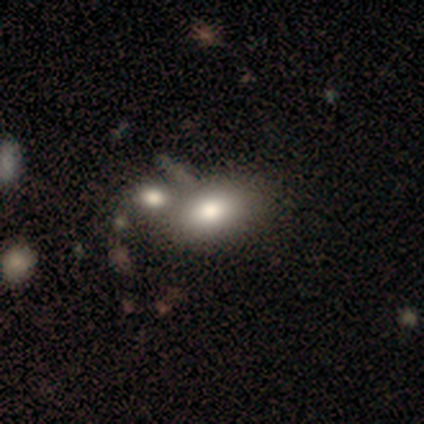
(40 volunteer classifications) smooth_or_featured: smooth (p=0.88) [alt: featured or disk p=0.10]
how_rounded: in between (p=0.94) [alt: round p=0.03]
merging: merger (p=0.46) [alt: none p=0.28]